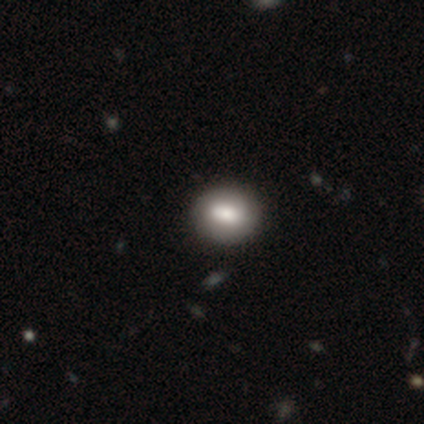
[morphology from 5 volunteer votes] Volunteers were most divided on "smooth or featured": smooth: 60%, featured or disk: 20%, star or artifact: 20%. More confident: how rounded — round (100%); merging — none (100%).